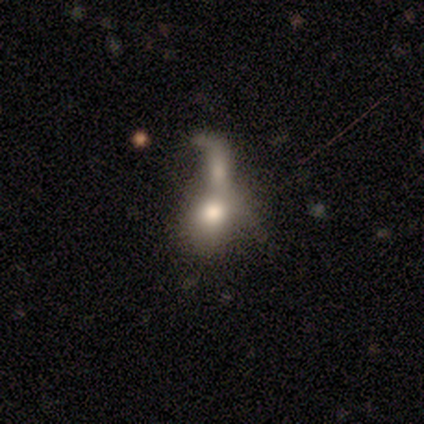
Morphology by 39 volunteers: smooth-or-featured: smooth: 59% | featured or disk: 38% | star or artifact: 3%
  how-rounded: round: 48% | in between: 43% | cigar-shaped: 9%
  merging: merger: 58% | none: 8% | major disturbance: 8% | minor disturbance: 3%